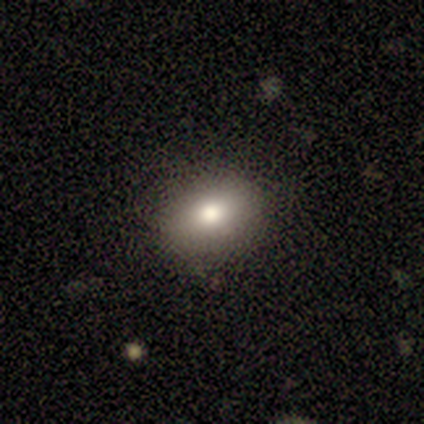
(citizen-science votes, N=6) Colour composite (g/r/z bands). It shows a smooth galaxy with no disk features (50%) that is in between round and cigar-shaped (100%). Merging: none (80%).